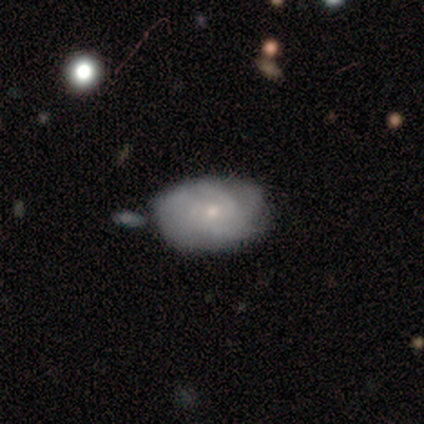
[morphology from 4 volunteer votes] smooth_or_featured: featured or disk (p=0.75) [alt: smooth p=0.25]
disk_edge_on: no (p=1.00)
bar: no (p=1.00)
has_spiral_arms: yes (p=1.00)
spiral_winding: medium (p=1.00)
spiral_arm_count: 2 (p=0.33) [tied with: 3 p=0.33, can't tell p=0.33]
bulge_size: small (p=0.67) [alt: moderate p=0.33]
merging: none (p=1.00)